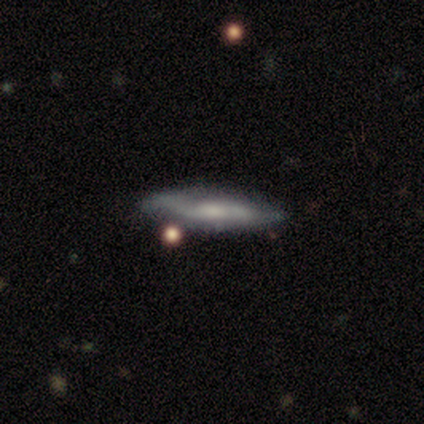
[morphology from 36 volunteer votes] This appears to be a featured or disk galaxy (53%) viewed edge-on (79%) with a boxy central bulge (40%, tied with rounded). Merging: none (64%).